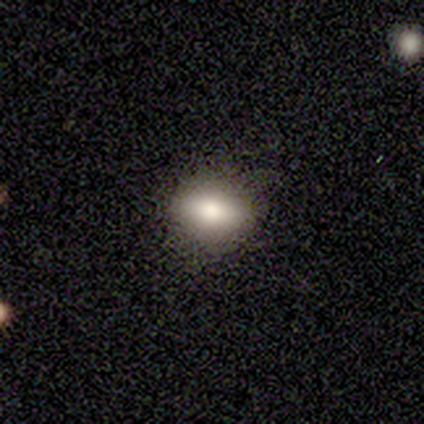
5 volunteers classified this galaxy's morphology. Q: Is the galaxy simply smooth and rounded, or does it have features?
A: smooth — 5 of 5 (100%).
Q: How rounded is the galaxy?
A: in between — 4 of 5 (80%).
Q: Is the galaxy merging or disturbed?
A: none — 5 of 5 (100%).